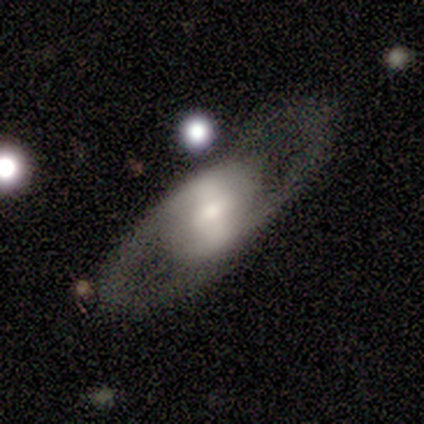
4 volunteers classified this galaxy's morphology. smooth-or-featured: featured or disk: 75% | star or artifact: 25% | smooth: 0%
  disk-edge-on: no: 100% | yes: 0%
    bar: weak: 67% | strong: 33% | no: 0%
    has-spiral-arms: yes: 100% | no: 0%
      spiral-winding: medium: 67% | tight: 33% | loose: 0%
      spiral-arm-count: 2: 67% | can't tell: 33% | 1: 0% | 3: 0% | 4: 0% | more than 4: 0%
    bulge-size: small: 67% | dominant: 33% | large: 0% | moderate: 0% | none: 0%
  merging: none: 100% | minor disturbance: 0% | major disturbance: 0% | merger: 0%